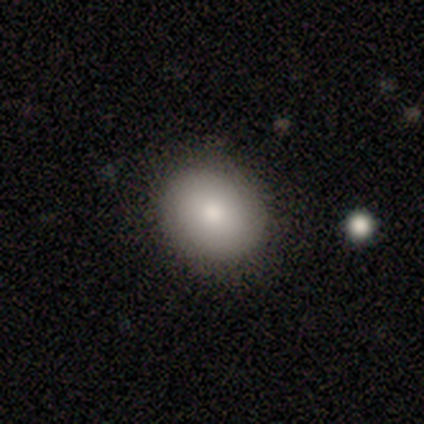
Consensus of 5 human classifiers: Smooth or featured? smooth (80%)
How rounded? round (75%)
Merging? none (75%)